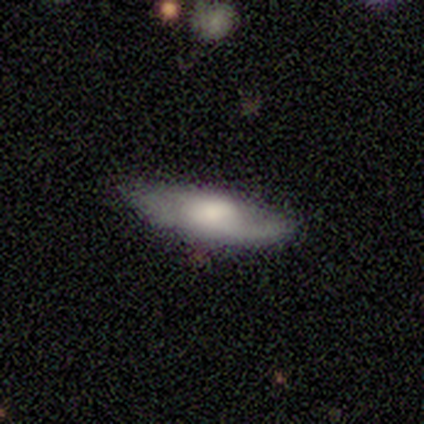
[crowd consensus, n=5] Smooth or featured? smooth (60%)
How rounded? in between (100%)
Merging? none (80%)